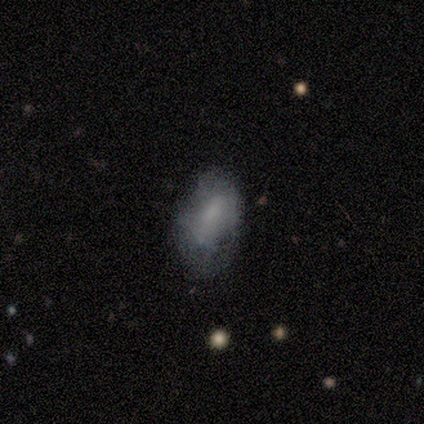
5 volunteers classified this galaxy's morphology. Overall: smooth (60%; featured or disk 40%). How rounded: in between (100%). Merging: none (60%; minor disturbance 20%).